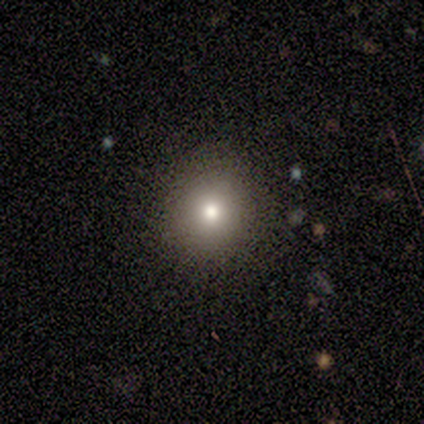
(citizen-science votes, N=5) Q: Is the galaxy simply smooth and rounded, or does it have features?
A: smooth — 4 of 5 (80%).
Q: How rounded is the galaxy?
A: round — 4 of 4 (100%).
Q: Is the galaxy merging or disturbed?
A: none — 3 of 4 (75%).